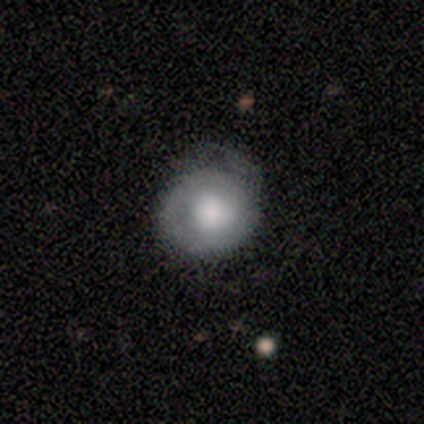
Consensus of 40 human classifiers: Smooth or featured? featured or disk (57%)
Edge-on disk? no (96%)
Bar? no (91%)
Spiral arms? yes (64%)
Spiral winding? tight (71%)
Spiral arm count? can't tell (43%)
Bulge size? large (55%)
Merging? none (44%)